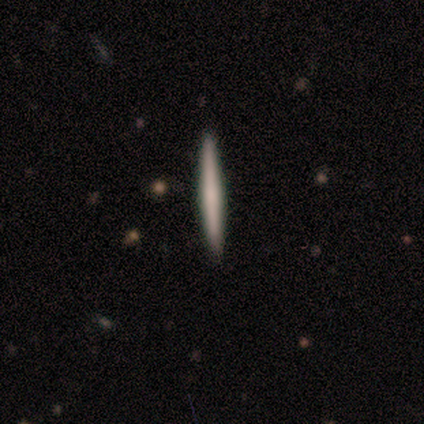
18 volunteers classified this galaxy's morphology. Smooth or featured: smooth — 72% (featured or disk — 28%)
How rounded: cigar-shaped — 100%
Merging: none — 89% (minor disturbance — 11%)